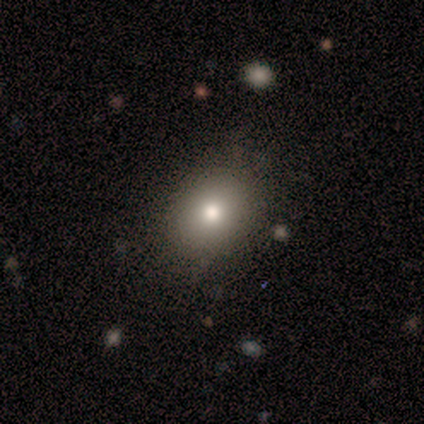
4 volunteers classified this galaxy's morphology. A smooth galaxy with no disk features (100%) that is in between round and cigar-shaped (75%).

Vote fractions:
- Smooth or featured? smooth: 100% / featured or disk: 0% / star or artifact: 0%
- How rounded? in between: 75% / round: 25% / cigar-shaped: 0%
- Merging? none: 75% / minor disturbance: 25% / major disturbance: 0% / merger: 0%